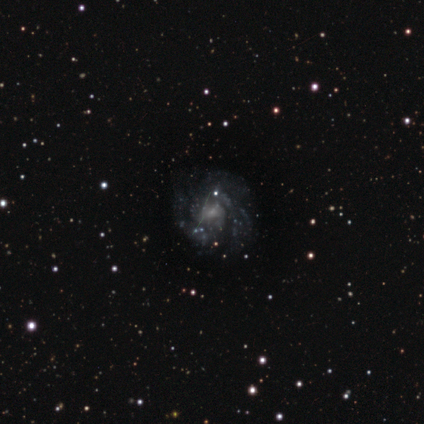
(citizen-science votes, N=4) featured or disk 75%, star or artifact 25%, smooth 0%. Down the decision tree: edge-on disk — no (100%); bar — no (100%); spiral arms — yes (100%); spiral arm count — 3 (33%, tied with more than 4 and can't tell); spiral winding — medium (67%); bulge size — small (100%); merging — none (67%).